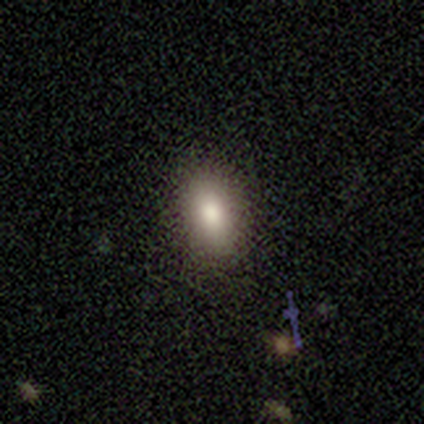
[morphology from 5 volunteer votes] Smooth or featured?
  - smooth: 80% *
  - star or artifact: 20%
  - featured or disk: 0%
How rounded?
  - in between: 100% *
  - round: 0%
  - cigar-shaped: 0%
Merging?
  - none: 75% *
  - minor disturbance: 25%
  - major disturbance: 0%
  - merger: 0%